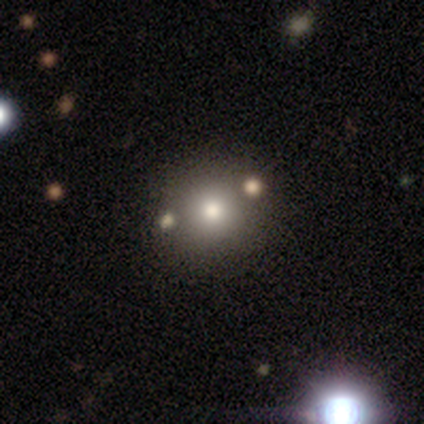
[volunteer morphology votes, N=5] Smooth or featured? 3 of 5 (60%) said smooth. How rounded? 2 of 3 (67%) said round. Merging? 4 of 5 (80%) said none.